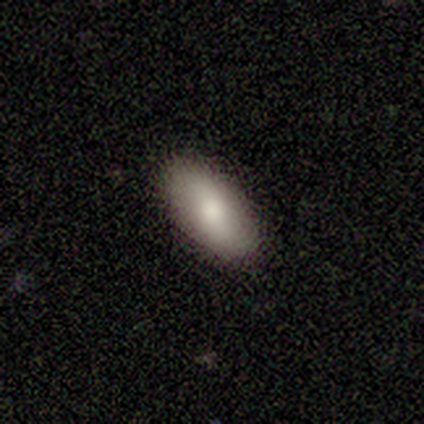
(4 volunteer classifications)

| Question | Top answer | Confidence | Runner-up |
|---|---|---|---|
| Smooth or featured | smooth | 50% | tied: featured or disk (50%) |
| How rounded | in between | 100% | — |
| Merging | none | 100% | — |